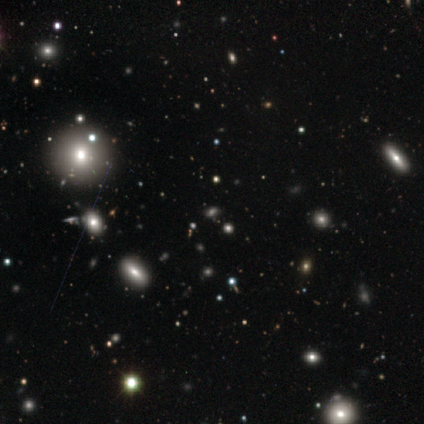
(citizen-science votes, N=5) Morphology: type=smooth (60%); roundness=in between (67%); merging=none (100%).